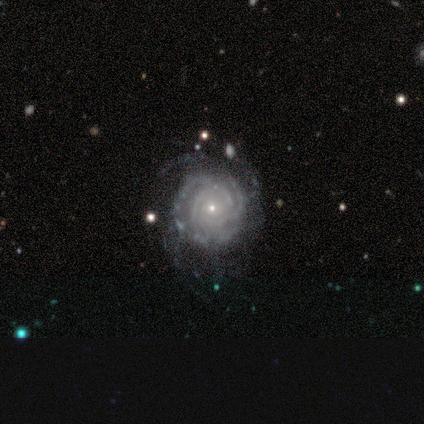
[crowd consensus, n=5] This is clearly a featured or disk galaxy (100%). It is clearly not viewed edge-on (100%). Bar: clearly no (100%). Spiral arm pattern: clearly yes (100%). Spiral arm count: likely can't tell (60%). Spiral winding: clearly tight (80%). Central bulge: clearly small (100%). Merging: clearly none (80%).